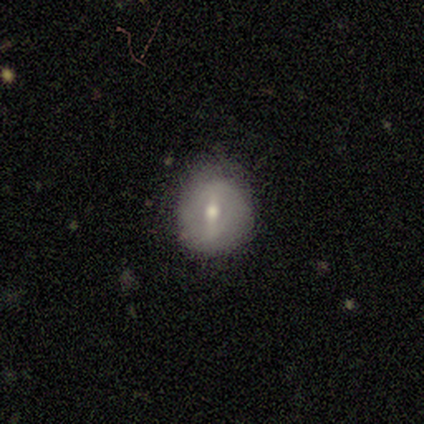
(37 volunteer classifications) Smooth or featured?
  - smooth: 46% *
  - featured or disk: 41%
  - star or artifact: 14%
How rounded?
  - round: 82% *
  - in between: 18%
  - cigar-shaped: 0%
Merging?
  - none: 81% *
  - minor disturbance: 16%
  - major disturbance: 3%
  - merger: 0%